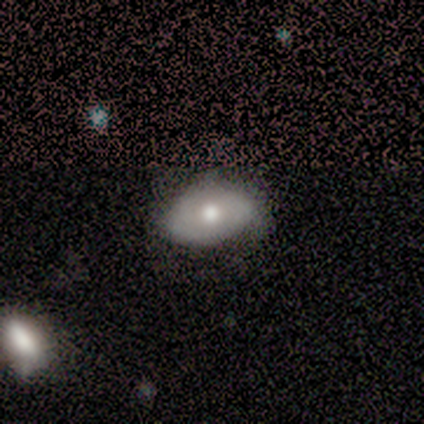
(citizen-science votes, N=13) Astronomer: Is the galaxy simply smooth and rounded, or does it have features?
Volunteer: smooth — 62%.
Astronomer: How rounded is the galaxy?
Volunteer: in between — 100%.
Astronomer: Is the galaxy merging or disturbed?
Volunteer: none — 67%.